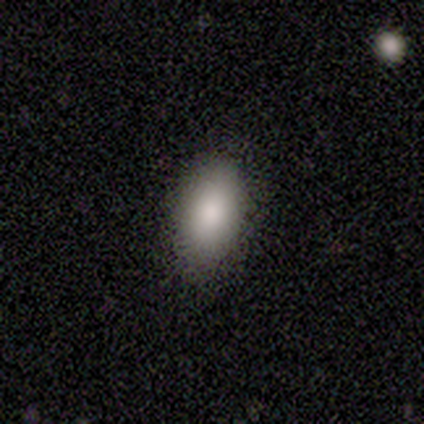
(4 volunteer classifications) Smooth or featured? smooth (75%)
How rounded? in between (100%)
Merging? none (100%)